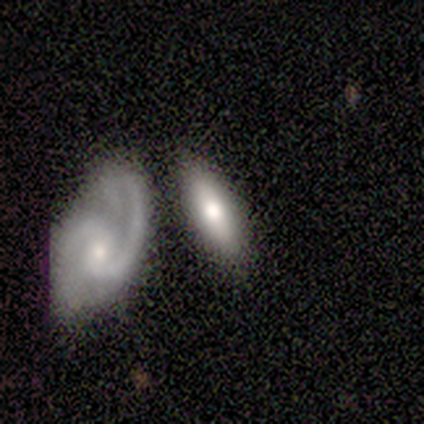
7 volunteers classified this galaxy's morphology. Smooth or featured: smooth — 43% (tied with featured or disk — 43%)
How rounded: in between — 67% (cigar-shaped — 33%)
Merging: none — 33% (tied with minor disturbance — 33%; merger — 33%)